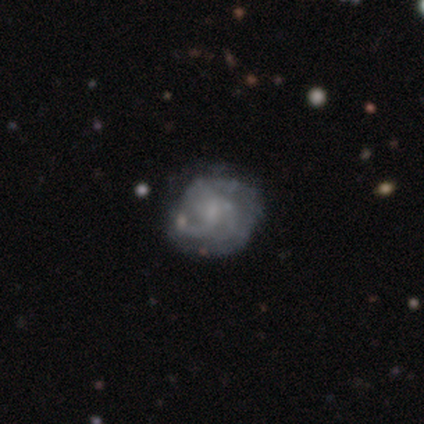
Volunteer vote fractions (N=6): Smooth or featured?
  - featured or disk: 100% *
  - smooth: 0%
  - star or artifact: 0%
Edge-on disk?
  - no: 100% *
  - yes: 0%
Bar?
  - weak: 67% *
  - no: 33%
  - strong: 0%
Spiral arms?
  - yes: 100% *
  - no: 0%
Spiral winding?
  - medium: 67% *
  - tight: 33%
  - loose: 0%
Spiral arm count?
  - 3: 50% * (tied)
  - can't tell: 50% * (tied)
  - 1: 0%
  - 2: 0%
  - 4: 0%
  - more than 4: 0%
Bulge size?
  - none: 50% *
  - small: 33%
  - moderate: 17%
  - dominant: 0%
  - large: 0%
Merging?
  - none: 83% *
  - minor disturbance: 17%
  - major disturbance: 0%
  - merger: 0%